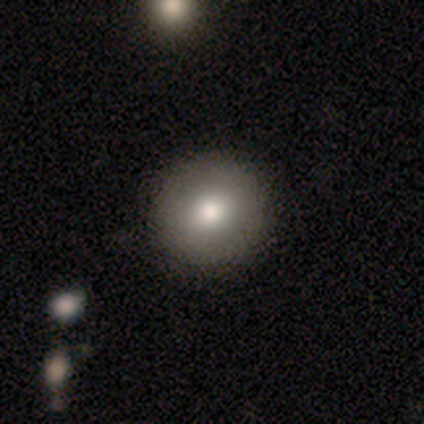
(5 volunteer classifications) smooth 60%, featured or disk 40%, star or artifact 0%. Down the decision tree: how rounded — round (100%); merging — none (100%).